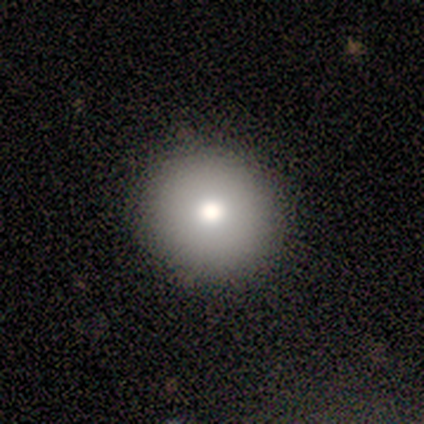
Overall: smooth (67%). How rounded: round (100%). Merging: none (100%).